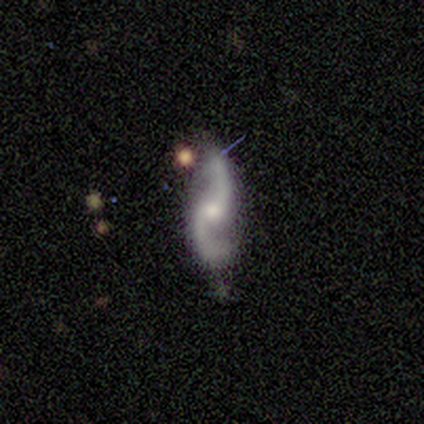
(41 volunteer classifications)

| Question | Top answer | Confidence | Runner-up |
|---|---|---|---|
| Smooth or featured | featured or disk | 98% | star or artifact (2%) |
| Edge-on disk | no | 100% | — |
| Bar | no | 70% | weak (25%) |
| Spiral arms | yes | 92% | no (8%) |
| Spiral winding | loose | 84% | medium (14%) |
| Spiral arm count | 2 | 92% | 1 (5%) |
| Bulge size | small | 50% | moderate (40%) |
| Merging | none | 65% | minor disturbance (18%) |